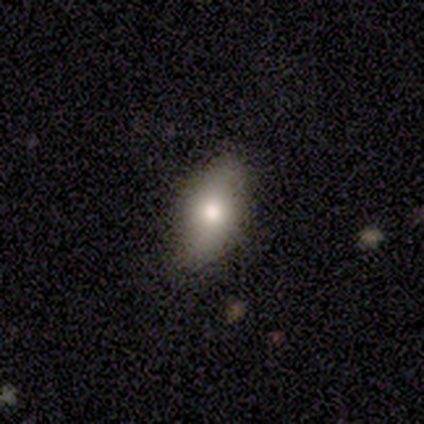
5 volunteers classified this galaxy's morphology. smooth_or_featured: smooth (p=0.80) [alt: featured or disk p=0.20]
how_rounded: in between (p=1.00)
merging: none (p=0.80) [alt: merger p=0.20]